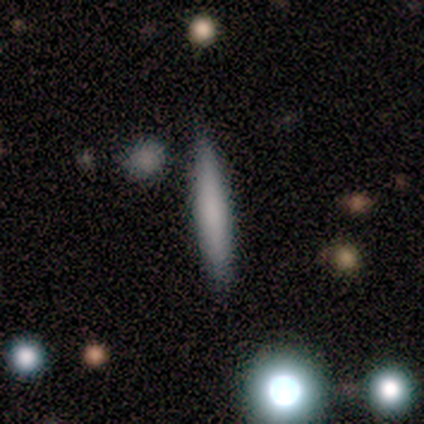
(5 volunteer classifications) A smooth galaxy with no disk features (80%) that is cigar-shaped (100%). Merging: none (100%).